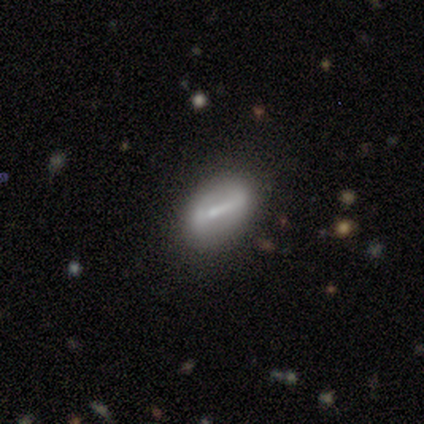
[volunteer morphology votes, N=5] Smooth or featured? featured or disk (60%)
Edge-on disk? no (67%)
Bar? strong (50%, tied with weak)
Spiral arms? no (100%)
Bulge size? moderate (50%, tied with small)
Merging? none (60%)